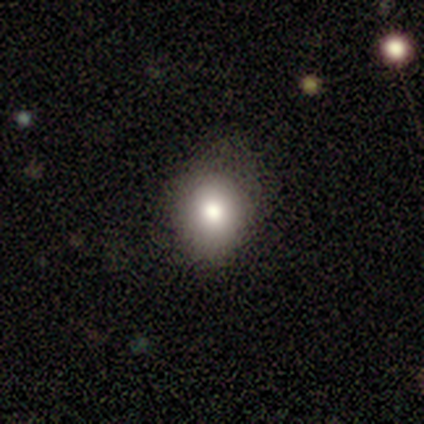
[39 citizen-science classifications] Q: Smooth or featured?
A: smooth (77%); runner-up: featured or disk (13%)
Q: How rounded?
A: round (63%); runner-up: in between (37%)
Q: Merging?
A: none (69%); runner-up: minor disturbance (31%)